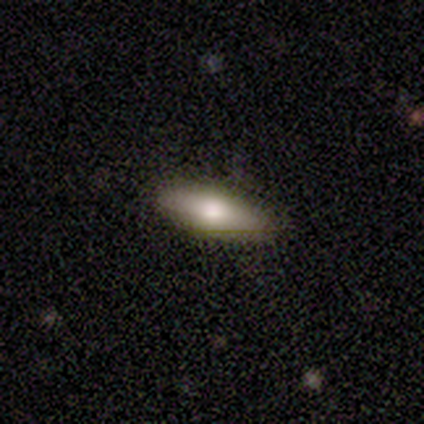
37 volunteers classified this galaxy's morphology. Smooth or featured?
  - smooth: 65% *
  - featured or disk: 27%
  - star or artifact: 8%
How rounded?
  - in between: 62% *
  - cigar-shaped: 38%
  - round: 0%
Merging?
  - none: 91% *
  - minor disturbance: 9%
  - major disturbance: 0%
  - merger: 0%